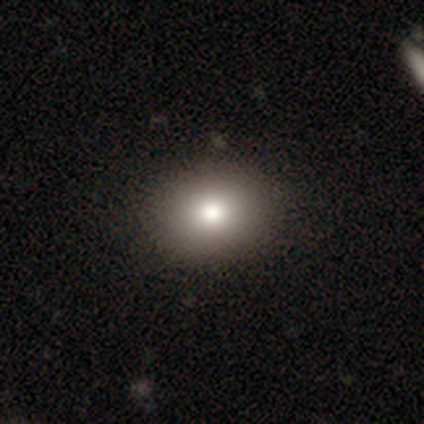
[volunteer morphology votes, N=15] type=smooth (67%); roundness=round (80%); merging=none (92%).